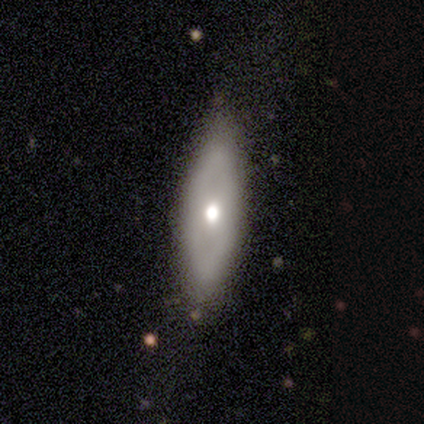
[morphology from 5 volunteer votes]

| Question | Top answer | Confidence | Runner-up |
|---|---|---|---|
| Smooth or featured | smooth | 80% | featured or disk (20%) |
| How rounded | in between | 75% | cigar-shaped (25%) |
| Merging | none | 80% | minor disturbance (20%) |